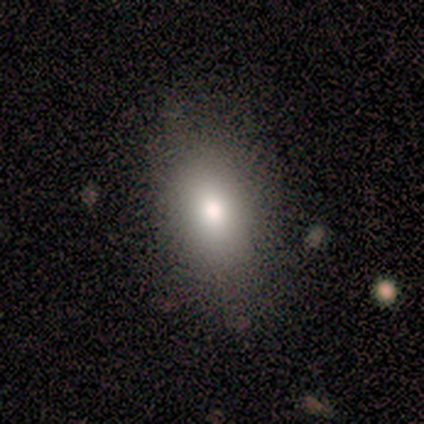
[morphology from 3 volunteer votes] type=smooth (100%); roundness=in between (67%); merging=none (67%).